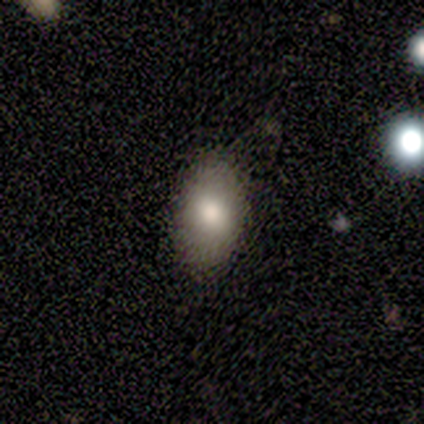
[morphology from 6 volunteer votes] Q: Smooth or featured?
A: smooth (83%); runner-up: featured or disk (17%)
Q: How rounded?
A: in between (80%); runner-up: round (20%)
Q: Merging?
A: none (83%); runner-up: minor disturbance (17%)